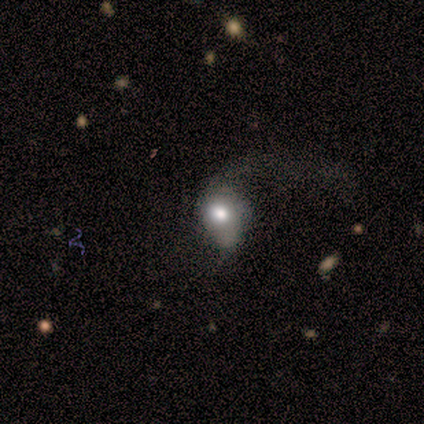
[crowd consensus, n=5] This is likely a smooth galaxy (60%). How rounded: likely in between (67%). Merging: possibly none (50%).